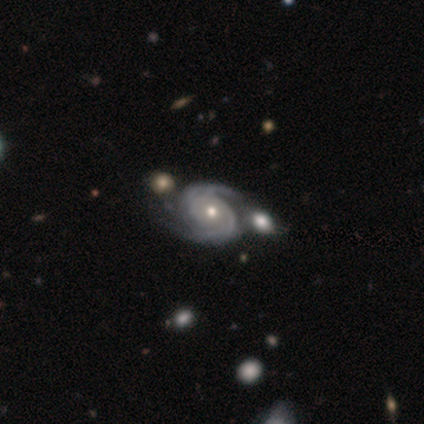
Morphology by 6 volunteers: smooth_or_featured: featured or disk (p=1.00)
disk_edge_on: no (p=1.00)
bar: no (p=0.83) [alt: weak p=0.17]
has_spiral_arms: yes (p=1.00)
spiral_winding: tight (p=0.67) [alt: medium p=0.17]
spiral_arm_count: 2 (p=0.67) [alt: 3 p=0.17]
bulge_size: moderate (p=0.67) [alt: small p=0.33]
merging: none (p=0.50) [tied with: merger p=0.50]